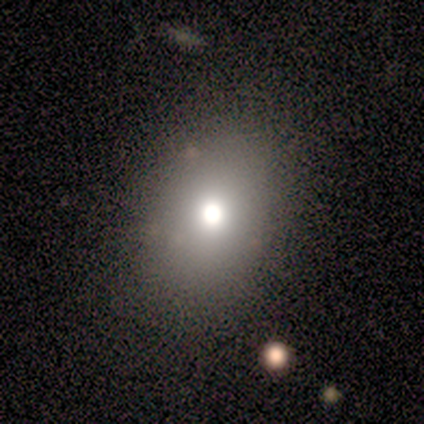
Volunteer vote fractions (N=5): Smooth or featured? 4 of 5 (80%) said smooth. How rounded? 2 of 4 (50%, tied with in between) said round. Merging? 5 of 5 (100%) said none.